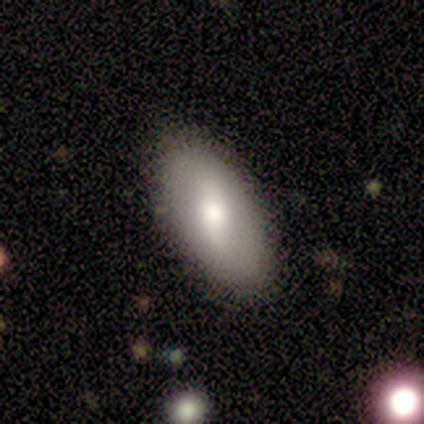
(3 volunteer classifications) Volunteers were most divided on "smooth or featured": smooth: 67%, featured or disk: 33%, star or artifact: 0%. More confident: how rounded — in between (100%); merging — none (100%).